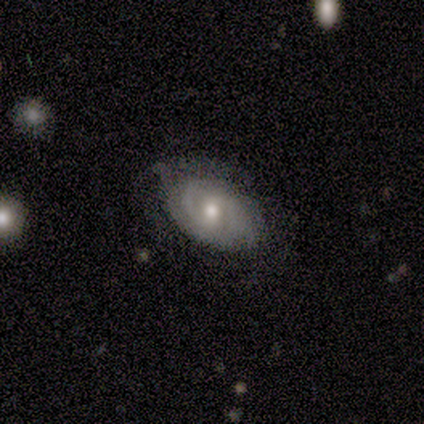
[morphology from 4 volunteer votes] Smooth or featured: smooth — 50% (tied with featured or disk — 50%)
How rounded: in between — 100%
Merging: none — 100%